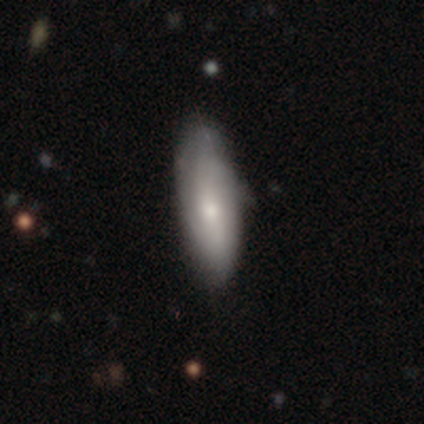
smooth 71%, featured or disk 26%, star or artifact 4%. Down the decision tree: how rounded — in between (64%); merging — none (35%).